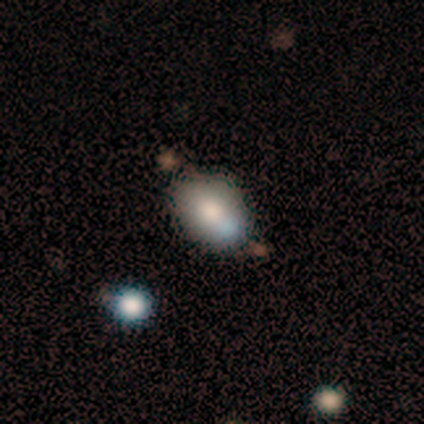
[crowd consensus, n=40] Smooth or featured: smooth — 78% (featured or disk — 18%)
How rounded: in between — 77% (round — 16%)
Merging: none — 50% (minor disturbance — 26%)